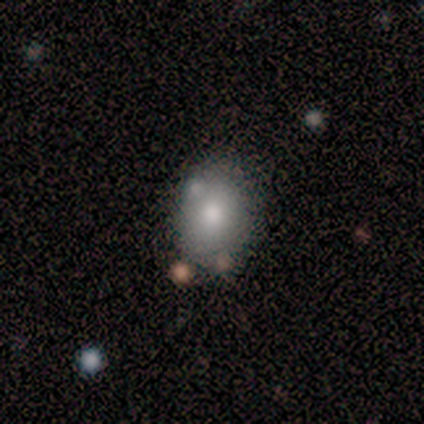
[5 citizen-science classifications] Morphology: type=smooth (100%); roundness=in between (80%); merging=none (60%).